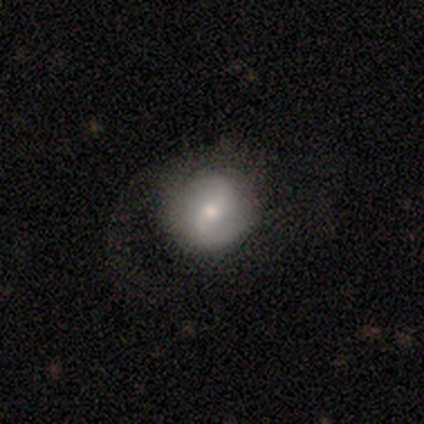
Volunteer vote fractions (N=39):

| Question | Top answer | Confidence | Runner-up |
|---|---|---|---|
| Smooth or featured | featured or disk | 51% | smooth (46%) |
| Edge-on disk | no | 95% | yes (5%) |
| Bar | weak | 53% | no (32%) |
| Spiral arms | yes | 79% | no (21%) |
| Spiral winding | medium | 40% | loose (33%) |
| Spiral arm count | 2 | 60% | 1 (33%) |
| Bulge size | moderate | 58% | small (37%) |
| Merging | none | 53% | major disturbance (34%) |